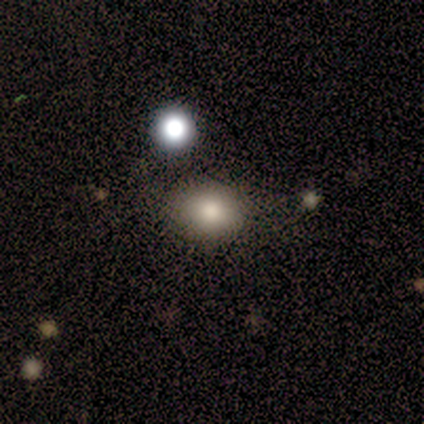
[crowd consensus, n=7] Q: Smooth or featured?
A: smooth (71%); runner-up: star or artifact (29%)
Q: How rounded?
A: in between (80%); runner-up: round (20%)
Q: Merging?
A: none (40%); tied with: minor disturbance (40%)